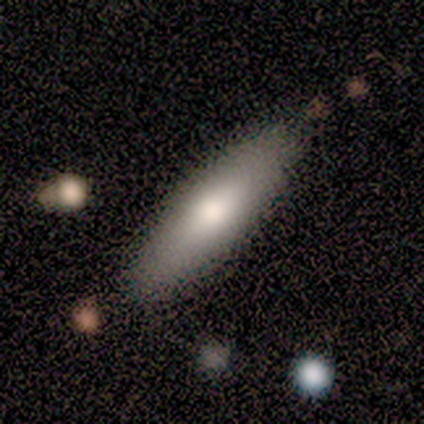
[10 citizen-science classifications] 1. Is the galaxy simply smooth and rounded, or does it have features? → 90% smooth, 10% featured or disk, 0% star or artifact.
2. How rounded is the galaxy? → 67% in between, 33% cigar-shaped, 0% round.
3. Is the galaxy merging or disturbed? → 80% none, 20% minor disturbance, 0% major disturbance, 0% merger.